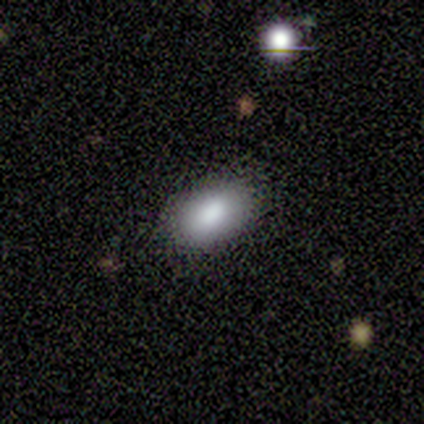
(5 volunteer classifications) This is clearly a smooth galaxy (100%). How rounded: clearly in between (100%). Merging: clearly none (100%).